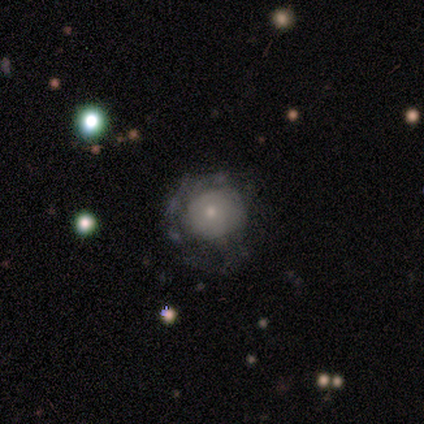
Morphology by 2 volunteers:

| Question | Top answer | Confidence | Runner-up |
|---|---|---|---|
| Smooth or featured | smooth | 100% | — |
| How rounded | round | 50% | tied: in between (50%) |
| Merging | none | 50% | tied: major disturbance (50%) |